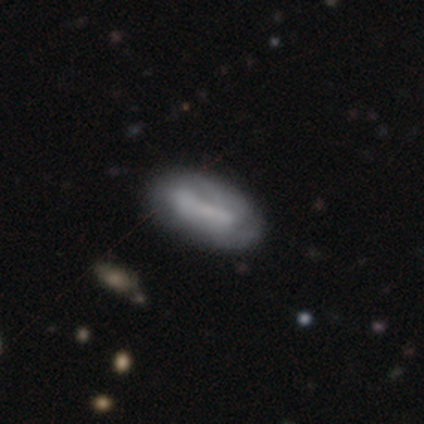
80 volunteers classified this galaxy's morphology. Overall: smooth (56%; featured or disk 39%). How rounded: in between (91%). Merging: none (34%; minor disturbance 12%).